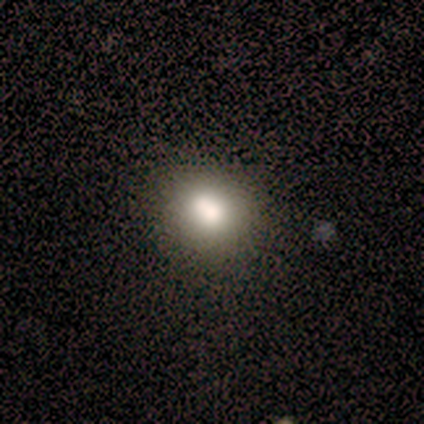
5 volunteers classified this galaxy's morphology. type=smooth (80%); roundness=round (75%); merging=none (100%).